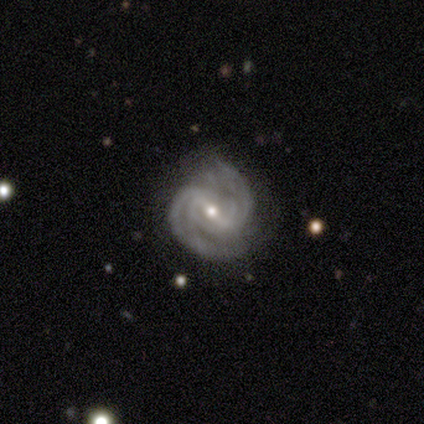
Smooth or featured? 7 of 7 (100%) said featured or disk. Edge-on disk? 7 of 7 (100%) said no. Bar? 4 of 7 (57%) said strong. Spiral arms? 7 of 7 (100%) said yes. Spiral winding? 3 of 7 (43%) said medium. Spiral arm count? 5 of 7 (71%) said 2. Bulge size? 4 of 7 (57%) said small. Merging? 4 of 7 (57%) said none.